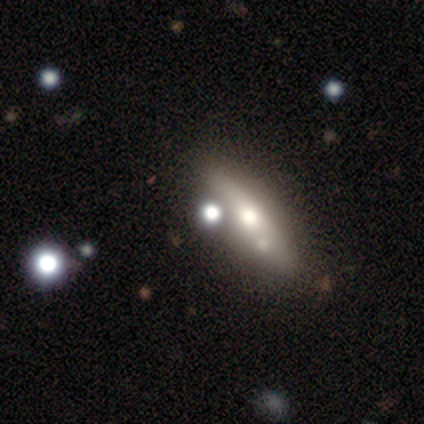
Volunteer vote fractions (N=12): This appears to be a smooth galaxy with no disk features (42%) that is cigar-shaped (80%). Merging: none (62%).